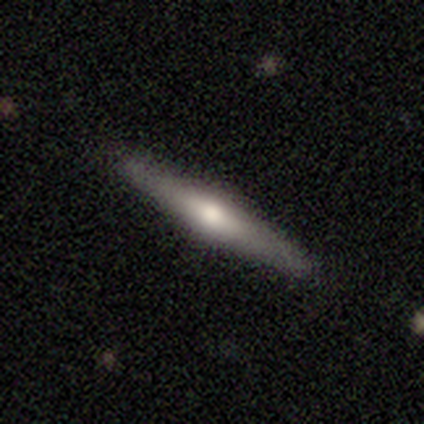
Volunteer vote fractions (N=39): Smooth or featured? featured or disk (59%)
Edge-on disk? yes (100%)
Edge-on bulge? rounded (91%)
Merging? none (89%)